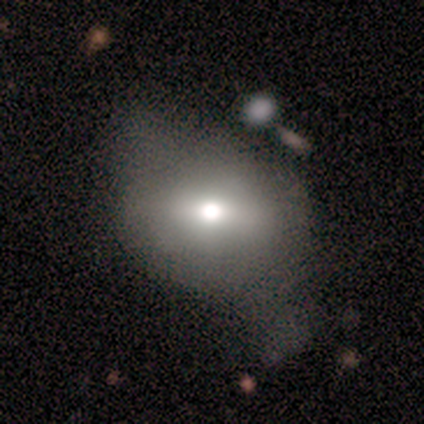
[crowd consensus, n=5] Smooth or featured? featured or disk (60%)
Edge-on disk? no (67%)
Bar? strong (50%, tied with weak)
Spiral arms? no (100%)
Bulge size? large (50%, tied with moderate)
Merging? minor disturbance (40%, tied with major disturbance)